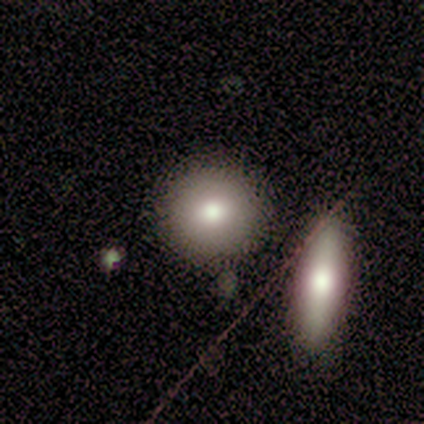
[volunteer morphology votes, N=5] smooth 80%, featured or disk 20%, star or artifact 0%. Down the decision tree: how rounded — round (100%); merging — none (80%).